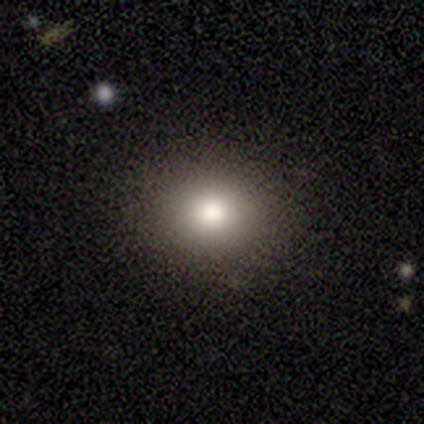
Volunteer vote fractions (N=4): This is clearly a smooth galaxy (100%). How rounded: likely round (75%). Merging: clearly none (100%).